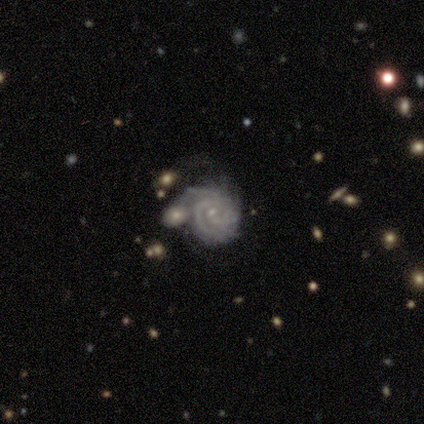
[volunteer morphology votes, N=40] Smooth or featured: featured or disk — 95% (smooth — 2%)
Edge-on disk: no — 100%
Bar: weak — 50% (no — 42%)
Spiral arms: yes — 100%
Spiral winding: tight — 79% (medium — 18%)
Spiral arm count: can't tell — 37% (3 — 29%)
Bulge size: small — 68% (moderate — 16%)
Merging: none — 44% (minor disturbance — 21%)